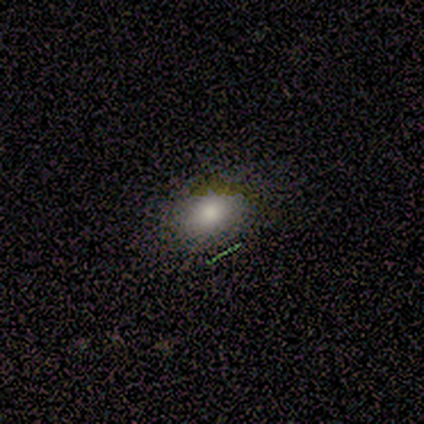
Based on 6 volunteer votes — A smooth galaxy with no disk features (83%) that is in between round and cigar-shaped (80%).

Vote fractions:
- Smooth or featured? smooth: 83% / featured or disk: 17% / star or artifact: 0%
- How rounded? in between: 80% / round: 20% / cigar-shaped: 0%
- Merging? none: 83% / major disturbance: 17% / minor disturbance: 0% / merger: 0%